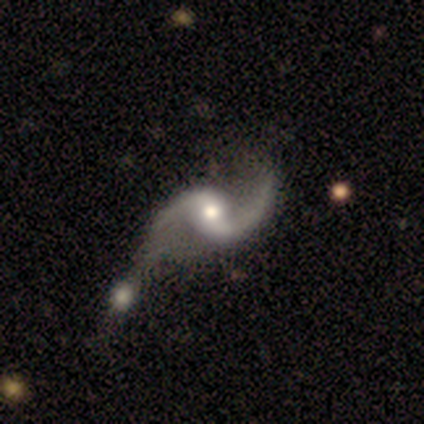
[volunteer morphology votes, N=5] type=featured or disk (100%); edge-on=no (100%); bar=weak (60%); spiral arms=yes (80%); winding=loose (100%); arm count=2 (100%); bulge=moderate (60%); merging=minor disturbance (60%).